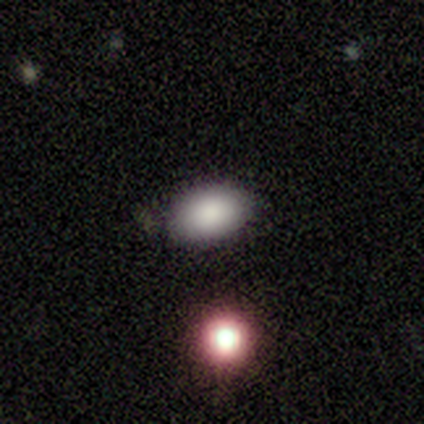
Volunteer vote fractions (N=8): A smooth galaxy with no disk features (75%) that is in between round and cigar-shaped (100%). Merging: none (100%).